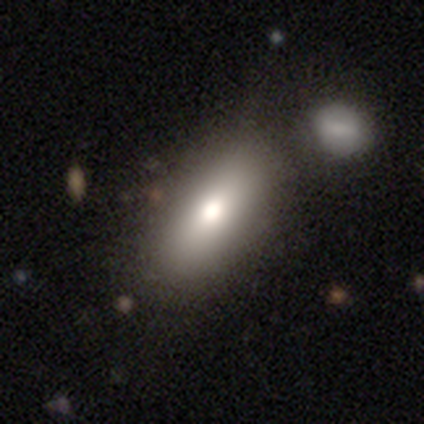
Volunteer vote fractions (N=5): A smooth galaxy with no disk features (100%) that is in between round and cigar-shaped (100%).

Vote fractions:
- Smooth or featured? smooth: 100% / featured or disk: 0% / star or artifact: 0%
- How rounded? in between: 100% / round: 0% / cigar-shaped: 0%
- Merging? none: 60% / merger: 40% / minor disturbance: 0% / major disturbance: 0%